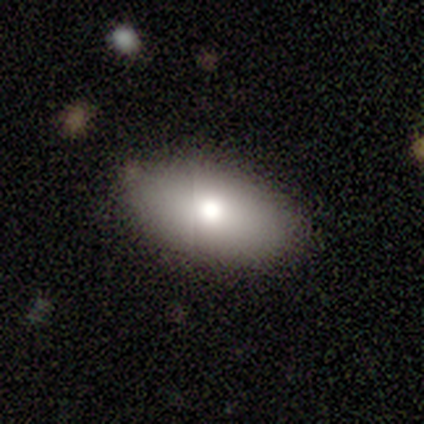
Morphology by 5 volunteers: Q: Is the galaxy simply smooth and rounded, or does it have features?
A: smooth — 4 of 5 (80%).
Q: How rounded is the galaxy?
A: in between — 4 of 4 (100%).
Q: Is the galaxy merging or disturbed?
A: none — 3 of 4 (75%).